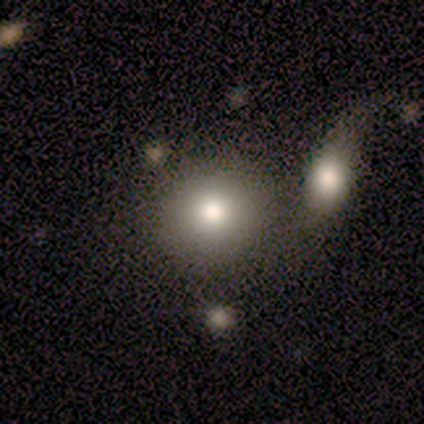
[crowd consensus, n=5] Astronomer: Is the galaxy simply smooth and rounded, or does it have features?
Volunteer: smooth — 100%.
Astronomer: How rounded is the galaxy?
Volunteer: round — 100%.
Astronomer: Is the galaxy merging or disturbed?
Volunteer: none — 40%, tied with merger at 40%.